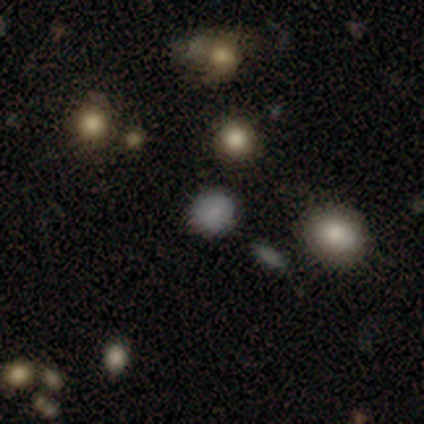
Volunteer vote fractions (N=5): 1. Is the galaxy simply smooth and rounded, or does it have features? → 80% smooth, 20% star or artifact, 0% featured or disk.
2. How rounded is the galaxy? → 100% round, 0% in between, 0% cigar-shaped.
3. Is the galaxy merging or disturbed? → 100% none, 0% minor disturbance, 0% major disturbance, 0% merger.